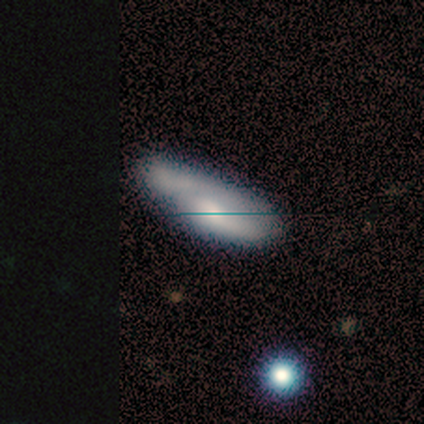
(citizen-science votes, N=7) smooth 57%, featured or disk 43%, star or artifact 0%. Down the decision tree: how rounded — in between (75%); merging — none (57%).